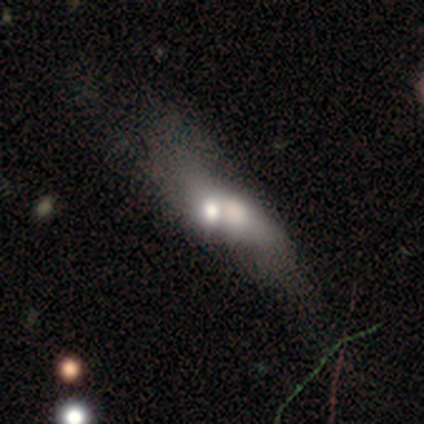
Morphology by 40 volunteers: Q: Smooth or featured?
A: smooth (55%); runner-up: featured or disk (38%)
Q: How rounded?
A: in between (64%); runner-up: round (18%)
Q: Merging?
A: merger (59%); runner-up: major disturbance (8%)